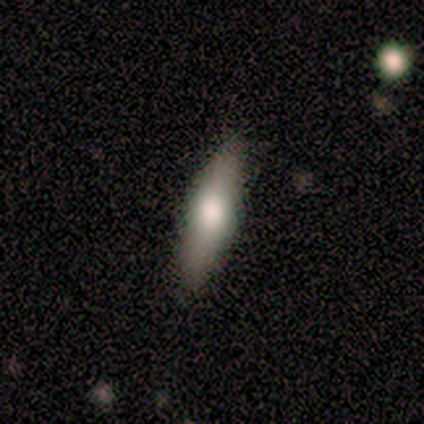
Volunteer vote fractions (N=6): Q: Smooth or featured?
A: smooth (67%); runner-up: featured or disk (33%)
Q: How rounded?
A: in between (75%); runner-up: cigar-shaped (25%)
Q: Merging?
A: none (100%)